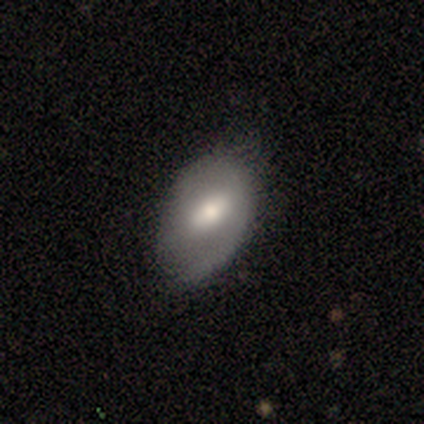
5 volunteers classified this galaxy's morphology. type=featured or disk (60%); edge-on=no (100%); bar=weak (67%); spiral arms=yes (100%); winding=tight (33%, tied with medium and loose); arm count=1 (67%); bulge=moderate (67%); merging=none (60%).